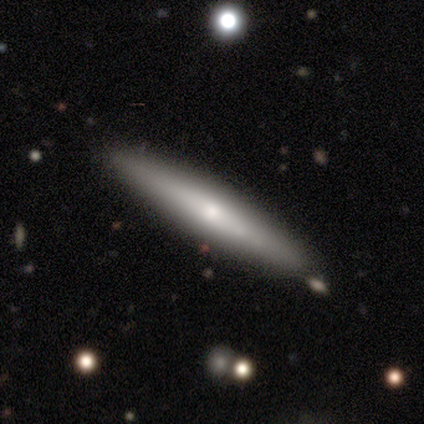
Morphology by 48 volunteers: type=smooth (46%, tied with featured or disk); roundness=cigar-shaped (86%); merging=none (77%).